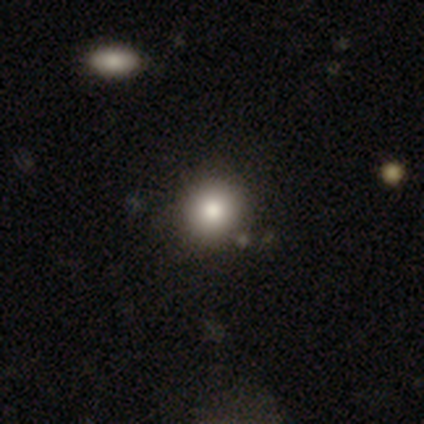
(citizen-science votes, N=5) Smooth or featured? smooth (80%)
How rounded? round (100%)
Merging? none (100%)